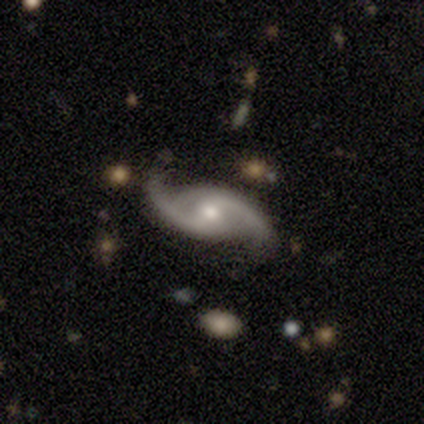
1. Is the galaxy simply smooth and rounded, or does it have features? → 100% featured or disk, 0% smooth, 0% star or artifact.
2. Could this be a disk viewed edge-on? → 100% no, 0% yes.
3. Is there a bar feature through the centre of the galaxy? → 67% weak, 33% no, 0% strong.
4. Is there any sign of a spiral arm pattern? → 67% yes, 33% no.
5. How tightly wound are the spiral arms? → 100% loose, 0% tight, 0% medium.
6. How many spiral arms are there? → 100% 2, 0% 1, 0% 3, 0% 4, 0% more than 4, 0% can't tell.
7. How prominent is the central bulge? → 67% moderate, 33% small, 0% dominant, 0% large, 0% none.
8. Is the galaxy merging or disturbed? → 100% none, 0% minor disturbance, 0% major disturbance, 0% merger.